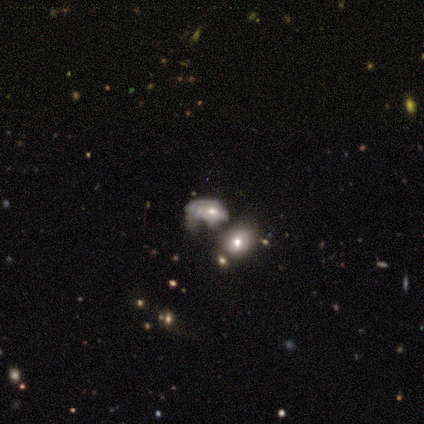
smooth 50%, featured or disk 33%, star or artifact 17%. Down the decision tree: how rounded — in between (100%); merging — major disturbance (80%).